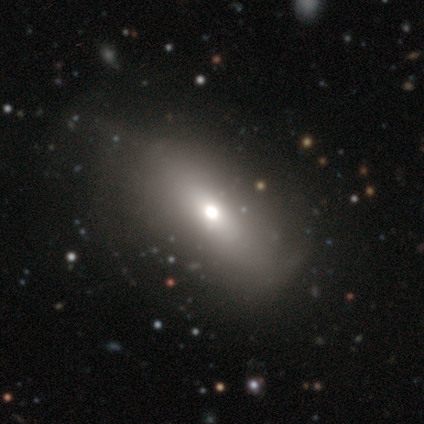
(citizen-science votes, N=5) Smooth or featured? 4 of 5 (80%) said smooth. How rounded? 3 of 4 (75%) said in between. Merging? 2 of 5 (40%, tied with major disturbance) said none.